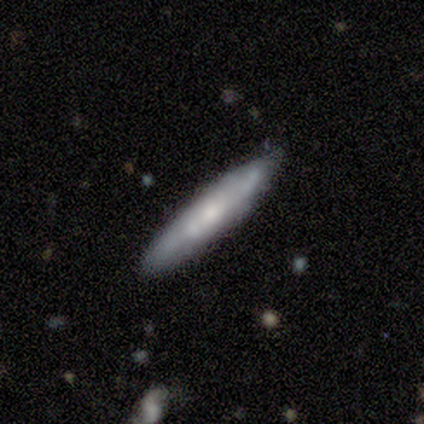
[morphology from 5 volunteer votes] Q: Smooth or featured?
A: featured or disk (80%); runner-up: smooth (20%)
Q: Edge-on disk?
A: no (75%); runner-up: yes (25%)
Q: Bar?
A: no (100%)
Q: Spiral arms?
A: no (67%); runner-up: yes (33%)
Q: Bulge size?
A: small (67%); runner-up: none (33%)
Q: Merging?
A: none (80%); runner-up: minor disturbance (20%)